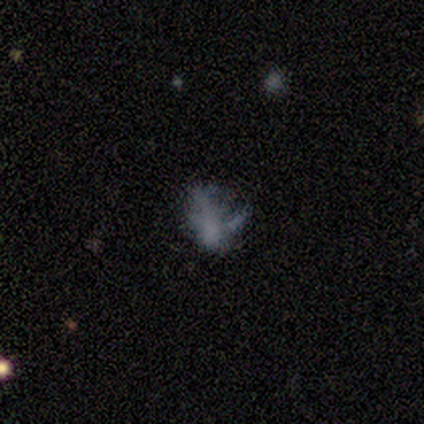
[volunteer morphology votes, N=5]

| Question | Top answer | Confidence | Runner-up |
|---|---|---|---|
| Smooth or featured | featured or disk | 40% | tied: star or artifact (40%) |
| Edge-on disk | no | 100% | — |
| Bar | no | 100% | — |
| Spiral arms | no | 100% | — |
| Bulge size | none | 100% | — |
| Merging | none | 33% | tied: minor disturbance (33%), major disturbance (33%) |